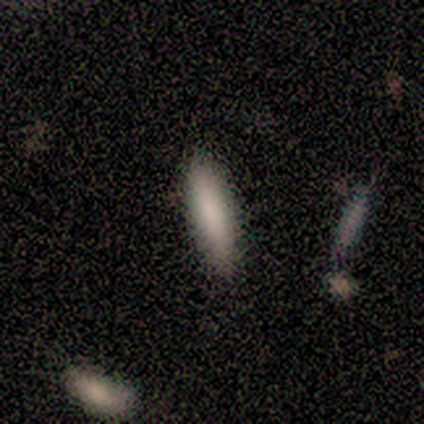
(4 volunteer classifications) Morphology: type=smooth (100%); roundness=cigar-shaped (75%); merging=none (100%).